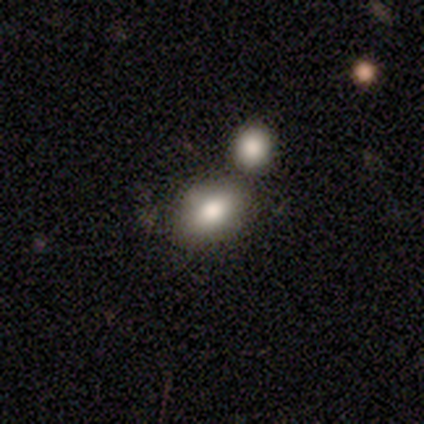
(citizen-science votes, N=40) Volunteers were most divided on "merging": none: 58%, merger: 29%, minor disturbance: 8%, major disturbance: 5%. More confident: smooth or featured — smooth (82%); how rounded — in between (82%).